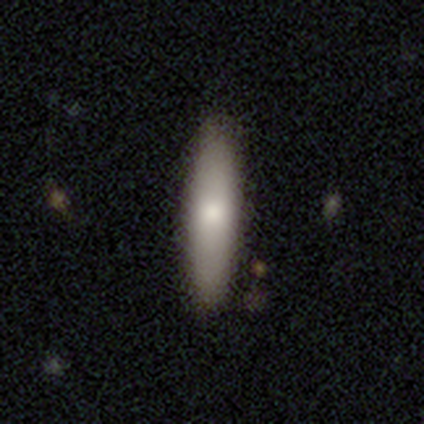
A smooth galaxy with no disk features (85%) that is cigar-shaped (65%). Merging: none (90%).